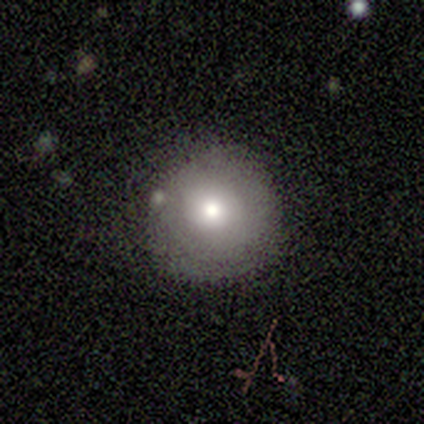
This appears to be a smooth galaxy with no disk features (60%) that is round (100%). Merging: none (60%).